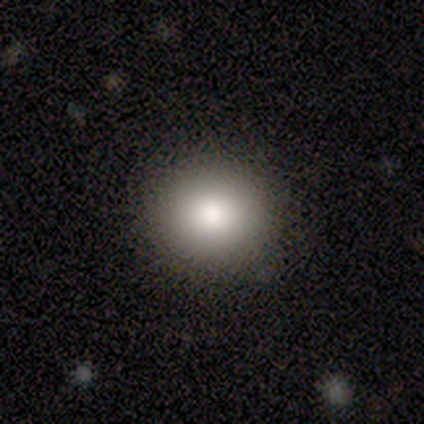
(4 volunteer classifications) Q: Smooth or featured?
A: smooth (75%); runner-up: star or artifact (25%)
Q: How rounded?
A: round (100%)
Q: Merging?
A: none (100%)